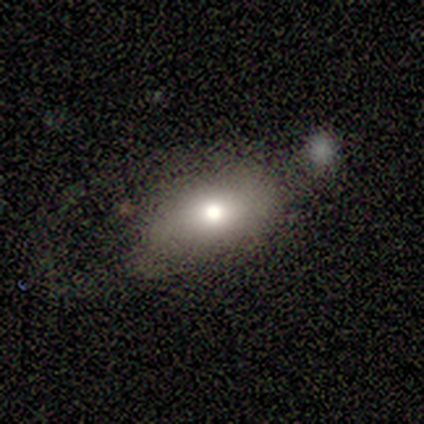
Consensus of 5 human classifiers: Smooth or featured? smooth (100%)
How rounded? in between (80%)
Merging? none (40%, tied with minor disturbance)